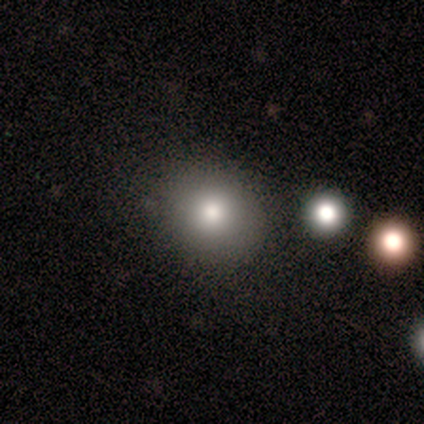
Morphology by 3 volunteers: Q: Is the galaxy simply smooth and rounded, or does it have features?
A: smooth — 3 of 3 (100%).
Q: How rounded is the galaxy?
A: round — 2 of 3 (67%).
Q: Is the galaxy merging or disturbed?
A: none — 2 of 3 (67%).